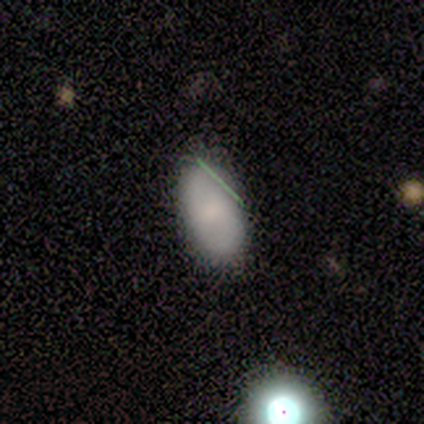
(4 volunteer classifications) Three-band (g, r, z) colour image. It shows a smooth galaxy with no disk features (50%) that is in between round and cigar-shaped (100%). Merging: minor disturbance (67%).